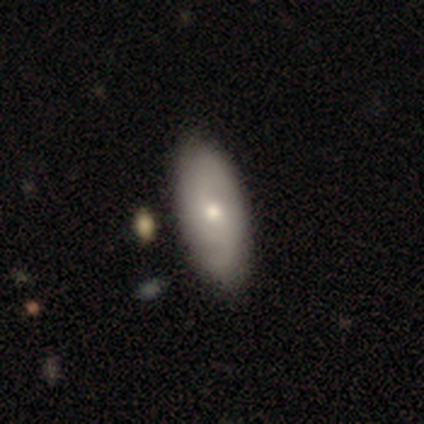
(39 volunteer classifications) Smooth or featured: smooth — 54% (featured or disk — 41%)
How rounded: in between — 90% (round — 5%)
Merging: none — 70% (minor disturbance — 8%)